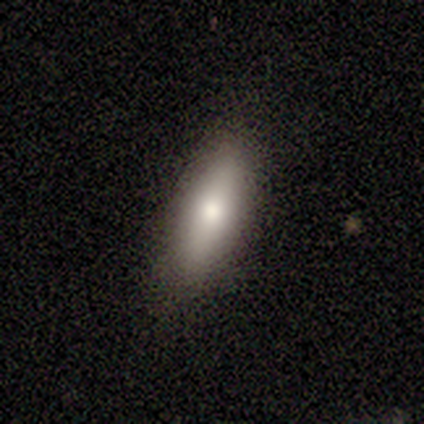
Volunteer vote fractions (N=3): Smooth or featured? 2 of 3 (67%) said smooth. How rounded? 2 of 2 (100%) said in between. Merging? 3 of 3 (100%) said none.